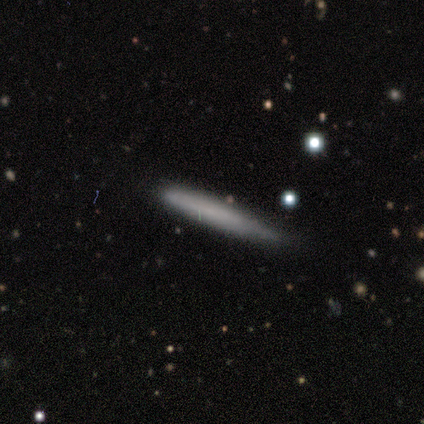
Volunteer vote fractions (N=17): This appears to be a smooth galaxy with no disk features (71%) that is cigar-shaped (100%). Merging: none (81%).